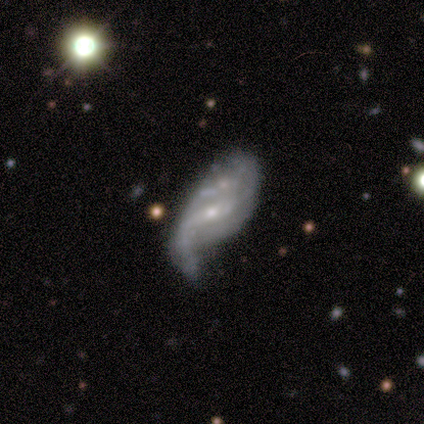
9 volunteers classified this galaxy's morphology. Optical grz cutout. It shows a featured or disk galaxy (78%) with a weak bar (86%), 2 (67%) loose (100%) spiral arms (86%) and a small central bulge (86%). Merging: minor disturbance (62%).